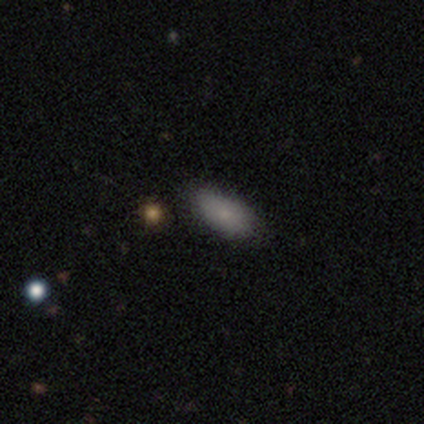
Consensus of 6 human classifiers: Overall: smooth (100%). How rounded: in between (100%). Merging: none (100%).